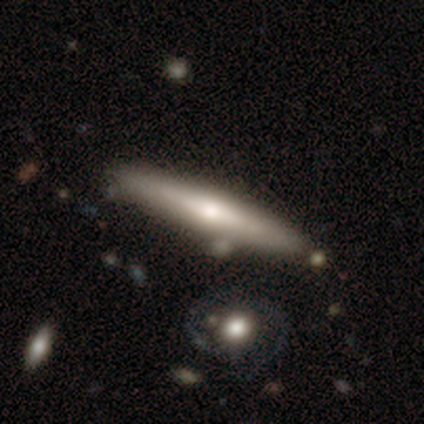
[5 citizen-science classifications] Smooth or featured: featured or disk — 60% (smooth — 20%)
Edge-on disk: yes — 67% (no — 33%)
Edge-on bulge: rounded — 100%
Merging: none — 100%